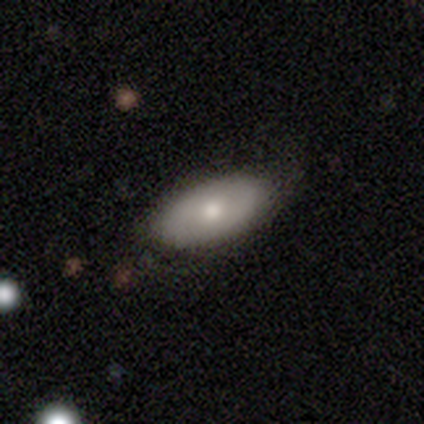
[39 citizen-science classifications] smooth_or_featured: smooth (p=0.74) [alt: featured or disk p=0.18]
how_rounded: in between (p=0.93) [alt: round p=0.03]
merging: none (p=0.72) [alt: minor disturbance p=0.19]